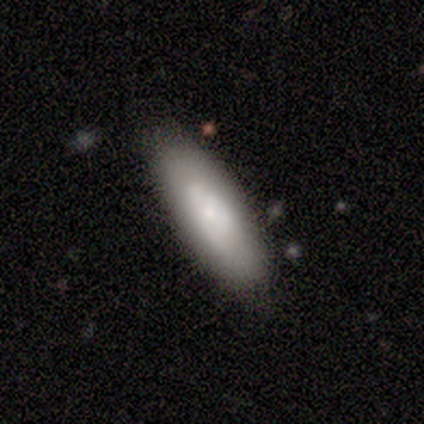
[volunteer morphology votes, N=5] Smooth or featured? 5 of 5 (100%) said smooth. How rounded? 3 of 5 (60%) said cigar-shaped. Merging? 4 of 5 (80%) said none.